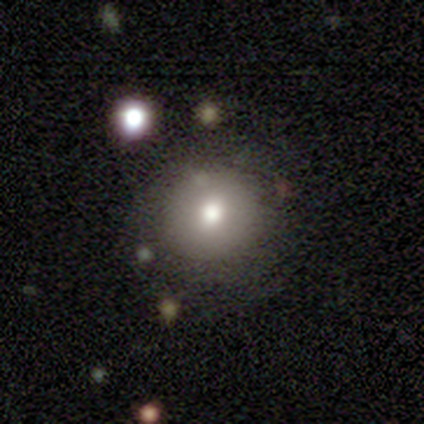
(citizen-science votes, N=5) Overall: smooth (80%). How rounded: round (100%). Merging: none (80%).